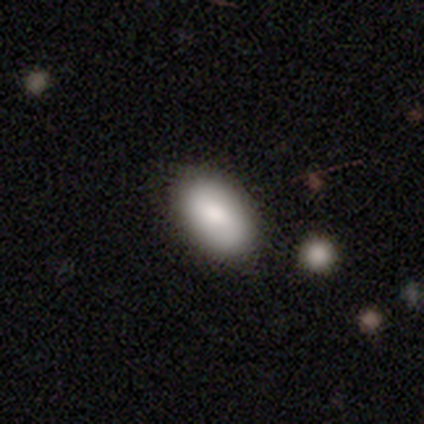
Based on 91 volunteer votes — Overall: smooth (84%). How rounded: in between (95%). Merging: none (87%).